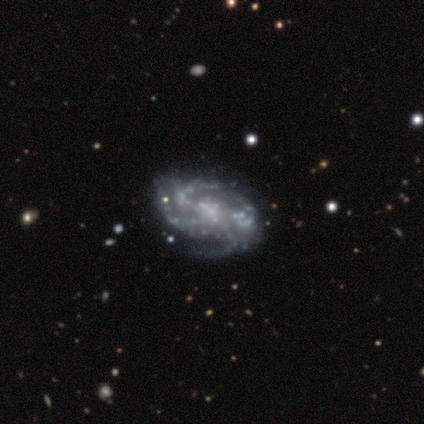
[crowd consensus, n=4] Q: Smooth or featured?
A: featured or disk (100%)
Q: Edge-on disk?
A: no (100%)
Q: Bar?
A: no (50%); runner-up: strong (25%)
Q: Spiral arms?
A: yes (100%)
Q: Spiral winding?
A: tight (50%); tied with: medium (50%)
Q: Spiral arm count?
A: 4 (75%); runner-up: 3 (25%)
Q: Bulge size?
A: none (75%); runner-up: moderate (25%)
Q: Merging?
A: none (50%); tied with: major disturbance (50%)